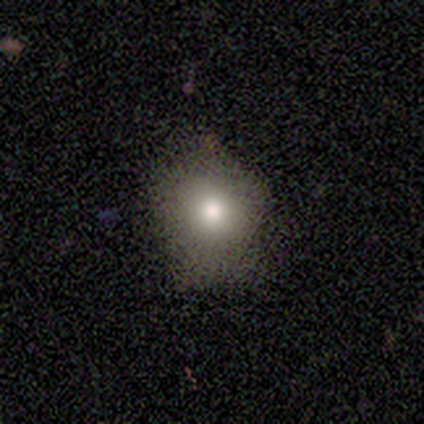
smooth_or_featured: smooth (p=0.75) [alt: star or artifact p=0.25]
how_rounded: round (p=0.67) [alt: in between p=0.33]
merging: none (p=0.67) [alt: minor disturbance p=0.33]